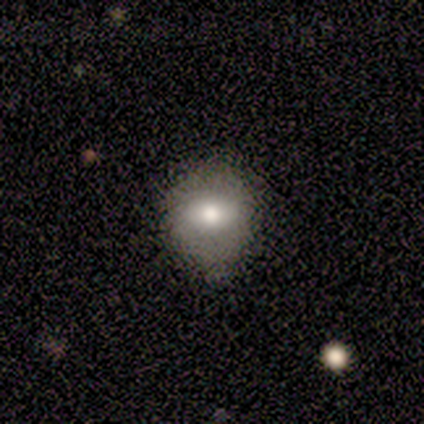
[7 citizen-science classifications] smooth 100%, featured or disk 0%, star or artifact 0%. Down the decision tree: how rounded — round (100%); merging — none (71%).